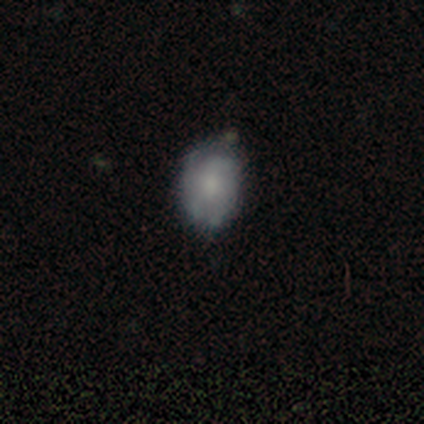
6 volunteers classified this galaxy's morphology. smooth_or_featured: featured or disk (p=0.50) [alt: smooth p=0.33]
disk_edge_on: no (p=1.00)
bar: no (p=0.67) [alt: weak p=0.33]
has_spiral_arms: yes (p=1.00)
spiral_winding: tight (p=0.67) [alt: medium p=0.33]
spiral_arm_count: can't tell (p=0.67) [alt: 3 p=0.33]
bulge_size: large (p=0.33) [tied with: small p=0.33, none p=0.33]
merging: minor disturbance (p=0.60) [alt: none p=0.40]